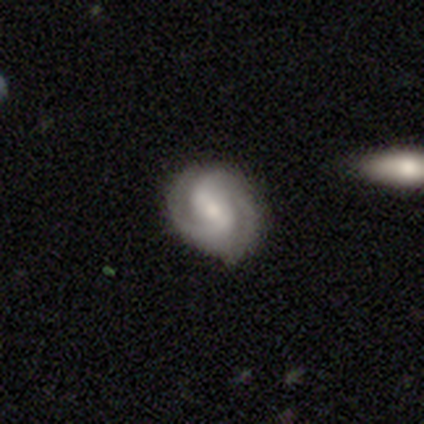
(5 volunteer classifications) Q: Smooth or featured?
A: featured or disk (100%)
Q: Edge-on disk?
A: no (80%); runner-up: yes (20%)
Q: Bar?
A: weak (100%)
Q: Spiral arms?
A: yes (100%)
Q: Spiral winding?
A: medium (75%); runner-up: tight (25%)
Q: Spiral arm count?
A: 2 (100%)
Q: Bulge size?
A: large (25%); tied with: moderate (25%); small (25%); none (25%)
Q: Merging?
A: none (80%); runner-up: minor disturbance (20%)